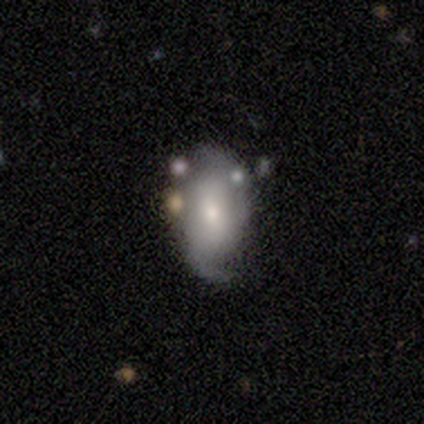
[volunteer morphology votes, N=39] Smooth or featured? featured or disk (62%)
Edge-on disk? no (100%)
Bar? weak (54%)
Spiral arms? yes (92%)
Spiral winding? loose (50%)
Spiral arm count? 2 (77%)
Bulge size? moderate (58%)
Merging? none (18%)